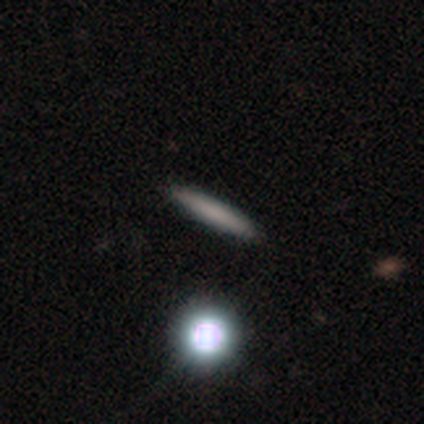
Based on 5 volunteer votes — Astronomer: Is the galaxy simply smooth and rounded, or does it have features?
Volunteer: smooth — 80%.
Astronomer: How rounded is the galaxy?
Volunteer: cigar-shaped — 100%.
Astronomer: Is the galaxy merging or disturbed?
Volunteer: none — 100%.